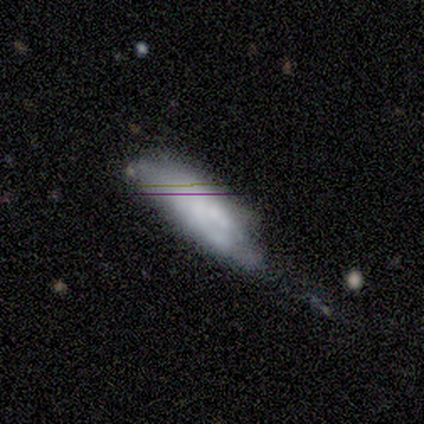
Smooth or featured? smooth (40%, tied with star or artifact)
How rounded? in between (100%)
Merging? minor disturbance (67%)